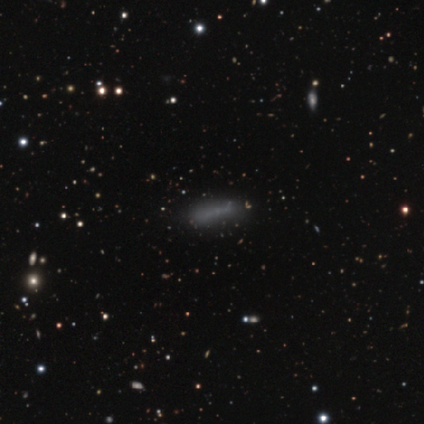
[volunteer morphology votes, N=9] This is likely a smooth galaxy (78%). How rounded: clearly cigar-shaped (86%). Merging: possibly none (56%).